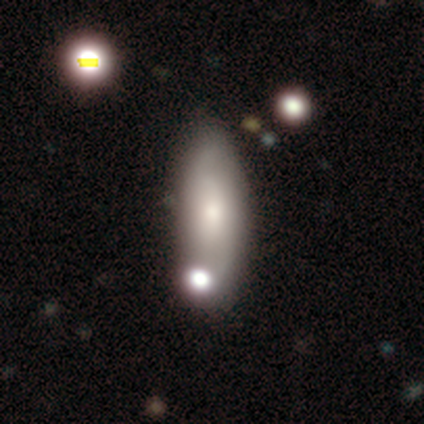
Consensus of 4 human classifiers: smooth_or_featured: smooth (p=0.50) [tied with: featured or disk p=0.50]
how_rounded: in between (p=0.50) [tied with: cigar-shaped p=0.50]
merging: none (p=0.50) [alt: minor disturbance p=0.25]